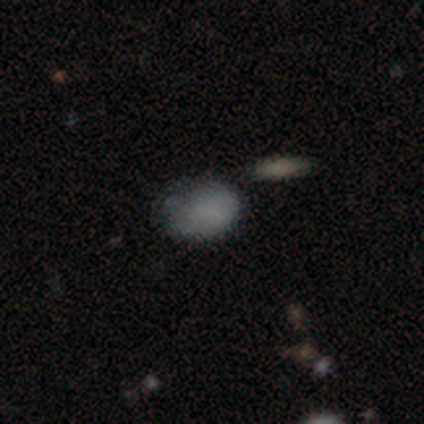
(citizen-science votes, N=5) smooth 100%, featured or disk 0%, star or artifact 0%. Down the decision tree: how rounded — in between (60%); merging — none (40%, tied with merger).